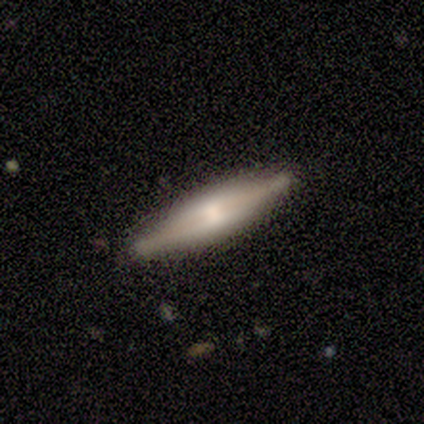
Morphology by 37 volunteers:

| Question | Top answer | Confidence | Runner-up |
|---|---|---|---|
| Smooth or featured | featured or disk | 70% | smooth (27%) |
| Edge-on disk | yes | 96% | no (4%) |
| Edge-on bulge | boxy | 64% | rounded (32%) |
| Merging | none | 86% | minor disturbance (14%) |